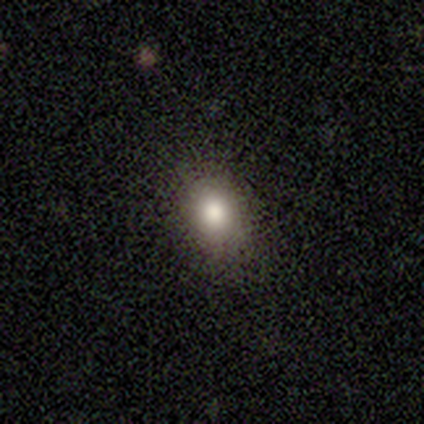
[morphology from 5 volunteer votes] This appears to be a smooth galaxy with no disk features (80%) that is round (75%). Merging: none (75%).